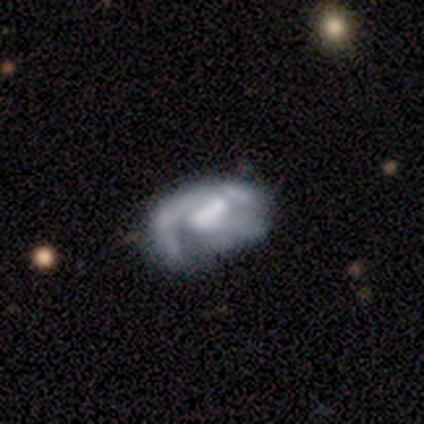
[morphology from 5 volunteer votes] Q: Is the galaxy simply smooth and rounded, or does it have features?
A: featured or disk — 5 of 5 (100%).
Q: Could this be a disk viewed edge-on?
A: no — 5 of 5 (100%).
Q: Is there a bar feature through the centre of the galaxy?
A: weak — 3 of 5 (60%).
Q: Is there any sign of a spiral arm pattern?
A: yes — 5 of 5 (100%).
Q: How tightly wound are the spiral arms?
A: medium — 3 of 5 (60%).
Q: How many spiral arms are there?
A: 1 — 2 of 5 (40%).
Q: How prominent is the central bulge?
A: moderate — 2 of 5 (40%, tied with small).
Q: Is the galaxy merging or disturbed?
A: none — 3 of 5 (60%).